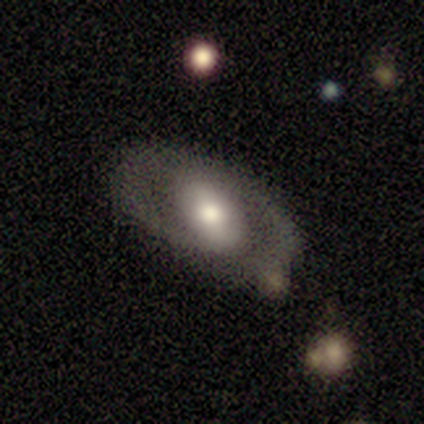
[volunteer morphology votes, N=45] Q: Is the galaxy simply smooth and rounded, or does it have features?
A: featured or disk — 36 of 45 (80%).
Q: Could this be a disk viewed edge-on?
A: no — 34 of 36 (94%).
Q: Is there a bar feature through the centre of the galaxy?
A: no — 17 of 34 (50%).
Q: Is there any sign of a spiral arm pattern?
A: yes — 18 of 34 (53%).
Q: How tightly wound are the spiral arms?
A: tight — 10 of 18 (56%).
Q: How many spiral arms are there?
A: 2 — 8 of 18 (44%).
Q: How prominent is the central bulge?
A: moderate — 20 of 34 (59%).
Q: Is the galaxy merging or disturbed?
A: none — 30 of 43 (70%).